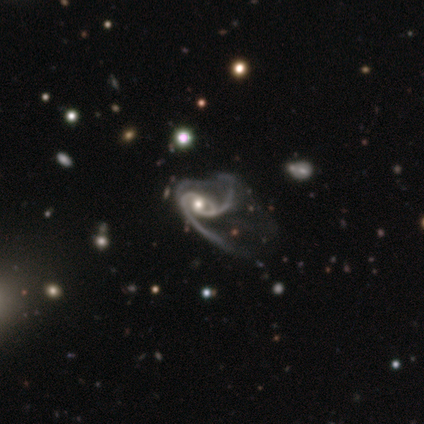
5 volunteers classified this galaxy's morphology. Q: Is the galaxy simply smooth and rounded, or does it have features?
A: featured or disk — 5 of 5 (100%).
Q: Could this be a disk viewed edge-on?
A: no — 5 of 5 (100%).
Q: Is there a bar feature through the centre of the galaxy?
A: no — 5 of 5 (100%).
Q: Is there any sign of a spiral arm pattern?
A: yes — 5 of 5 (100%).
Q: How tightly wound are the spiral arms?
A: loose — 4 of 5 (80%).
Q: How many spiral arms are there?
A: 2 — 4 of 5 (80%).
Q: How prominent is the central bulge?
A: moderate — 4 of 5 (80%).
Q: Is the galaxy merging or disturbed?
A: major disturbance — 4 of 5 (80%).